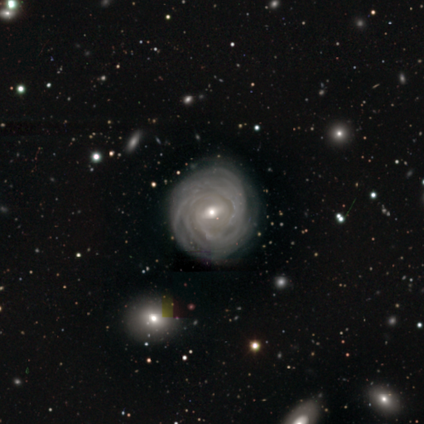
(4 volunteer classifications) A featured or disk galaxy (100%) with a weak bar (50%), 3 (25%, tied with 4, more than 4 and can't tell) tight (100%) spiral arms (100%) and a small central bulge (75%).

Vote fractions:
- Smooth or featured? featured or disk: 100% / smooth: 0% / star or artifact: 0%
- Edge-on disk? no: 100% / yes: 0%
- Bar? weak: 50% / strong: 25% / no: 25%
- Spiral arms? yes: 100% / no: 0%
- Spiral winding? tight: 100% / medium: 0% / loose: 0%
- Spiral arm count? 3: 25% (tied) / 4: 25% (tied) / more than 4: 25% (tied) / can't tell: 25% (tied) / 1: 0% / 2: 0%
- Bulge size? small: 75% / moderate: 25% / dominant: 0% / large: 0% / none: 0%
- Merging? none: 75% / minor disturbance: 25% / major disturbance: 0% / merger: 0%